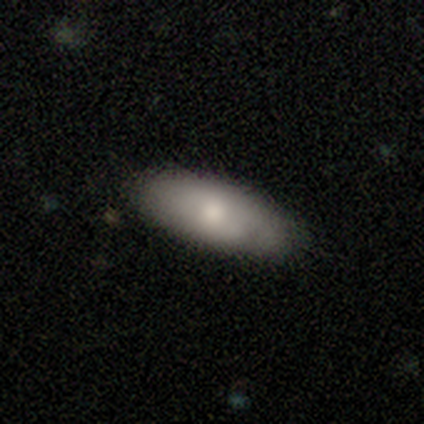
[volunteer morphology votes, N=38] This appears to be a smooth galaxy with no disk features (84%) that is in between round and cigar-shaped (84%). Merging: none (75%).